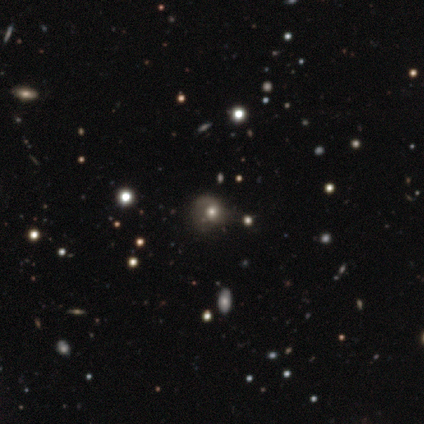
Overall: smooth (42%; star or artifact 33%). How rounded: round (50%, tied with in between). Merging: none (36%, tied with minor disturbance).